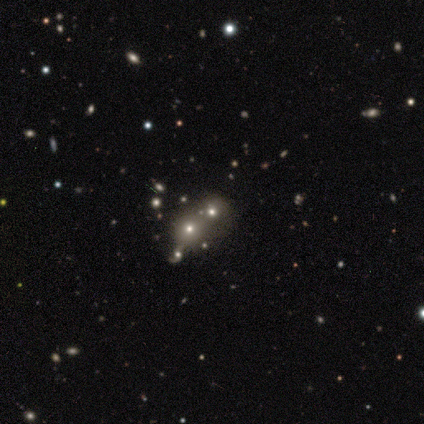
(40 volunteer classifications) smooth 42%, star or artifact 35%, featured or disk 22%. Down the decision tree: how rounded — round (76%); merging — merger (50%).